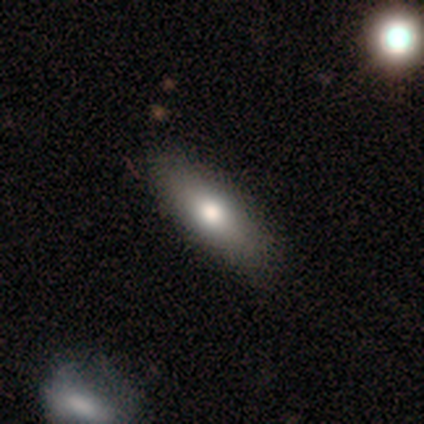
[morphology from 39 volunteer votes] Smooth or featured: smooth — 90% (featured or disk — 10%)
How rounded: in between — 51% (cigar-shaped — 46%)
Merging: none — 59% (major disturbance — 5%)